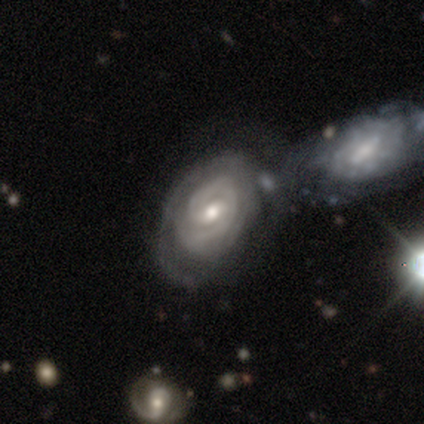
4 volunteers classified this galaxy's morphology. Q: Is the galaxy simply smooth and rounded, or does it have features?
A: featured or disk — 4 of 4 (100%).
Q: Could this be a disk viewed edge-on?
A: no — 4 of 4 (100%).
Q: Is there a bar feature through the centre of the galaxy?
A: weak — 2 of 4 (50%, tied with no).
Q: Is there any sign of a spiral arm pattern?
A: yes — 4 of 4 (100%).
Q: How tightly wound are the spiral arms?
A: tight — 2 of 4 (50%).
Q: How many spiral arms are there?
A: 2 — 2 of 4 (50%, tied with can't tell).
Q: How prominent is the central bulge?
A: moderate — 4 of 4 (100%).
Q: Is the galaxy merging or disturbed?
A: minor disturbance — 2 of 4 (50%).